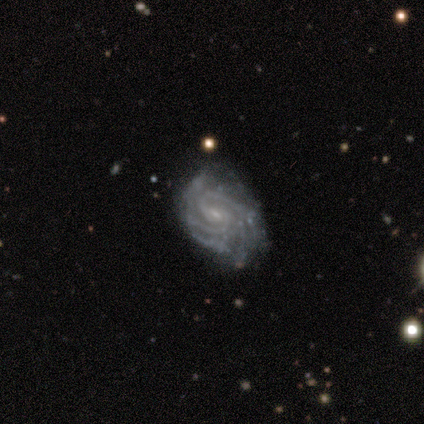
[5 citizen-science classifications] Smooth or featured?
  - featured or disk: 100% *
  - smooth: 0%
  - star or artifact: 0%
Edge-on disk?
  - no: 100% *
  - yes: 0%
Bar?
  - strong: 40% * (tied)
  - no: 40% * (tied)
  - weak: 20%
Spiral arms?
  - yes: 80% *
  - no: 20%
Spiral winding?
  - tight: 50% * (tied)
  - medium: 50% * (tied)
  - loose: 0%
Spiral arm count?
  - can't tell: 50% *
  - 2: 25%
  - 3: 25%
  - 1: 0%
  - 4: 0%
  - more than 4: 0%
Bulge size?
  - small: 80% *
  - none: 20%
  - dominant: 0%
  - large: 0%
  - moderate: 0%
Merging?
  - none: 100% *
  - minor disturbance: 0%
  - major disturbance: 0%
  - merger: 0%